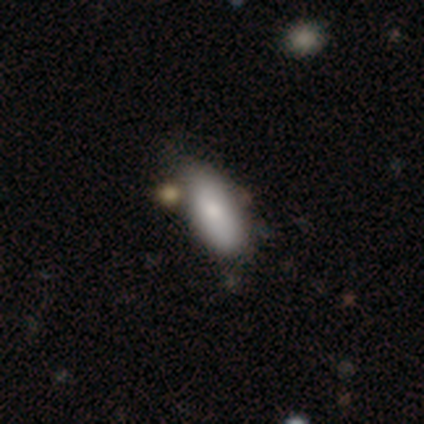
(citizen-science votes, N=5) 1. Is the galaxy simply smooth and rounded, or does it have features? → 80% smooth, 20% featured or disk, 0% star or artifact.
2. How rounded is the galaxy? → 100% in between, 0% round, 0% cigar-shaped.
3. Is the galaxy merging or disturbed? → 80% none, 20% minor disturbance, 0% major disturbance, 0% merger.